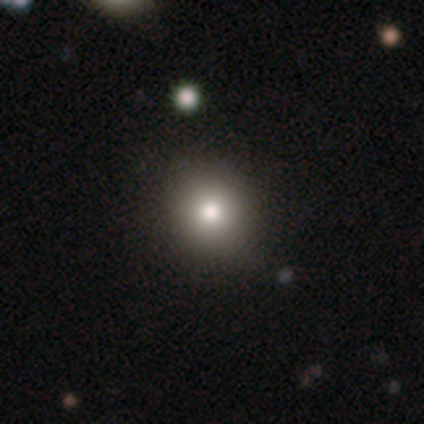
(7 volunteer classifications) Smooth or featured: smooth — 57% (star or artifact — 43%)
How rounded: round — 75% (in between — 25%)
Merging: none — 50% (tied with minor disturbance — 50%)